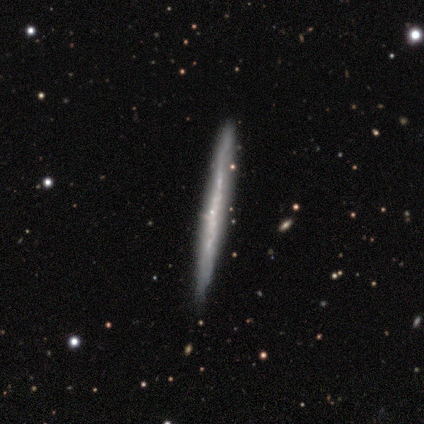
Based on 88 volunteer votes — smooth-or-featured: featured or disk: 69% | smooth: 24% | star or artifact: 7%
  disk-edge-on: yes: 93% | no: 7%
    edge-on-bulge: none: 84% | rounded: 16% | boxy: 0%
  merging: none: 78% | minor disturbance: 20% | merger: 2% | major disturbance: 0%